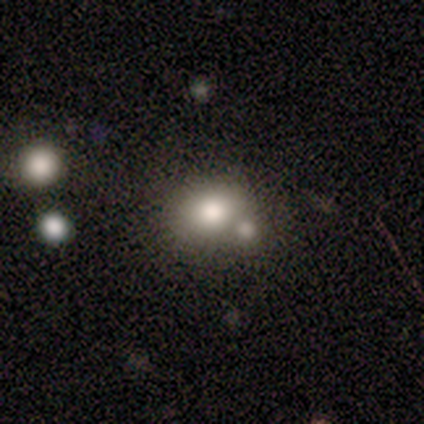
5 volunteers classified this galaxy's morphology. Smooth or featured? smooth (60%)
How rounded? in between (67%)
Merging? minor disturbance (40%, tied with merger)